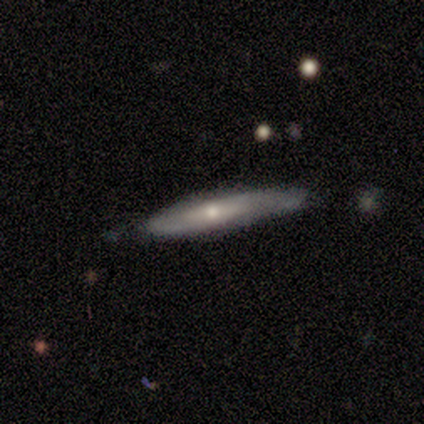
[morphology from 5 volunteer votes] Smooth or featured? 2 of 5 (40%, tied with featured or disk) said smooth. How rounded? 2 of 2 (100%) said cigar-shaped. Merging? 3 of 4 (75%) said none.